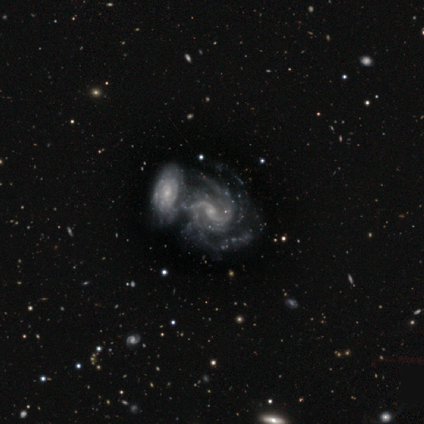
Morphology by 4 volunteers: Smooth or featured? 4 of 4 (100%) said featured or disk. Edge-on disk? 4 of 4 (100%) said no. Bar? 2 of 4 (50%, tied with no) said strong. Spiral arms? 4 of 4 (100%) said yes. Spiral winding? 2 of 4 (50%) said loose. Spiral arm count? 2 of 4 (50%) said 2. Bulge size? 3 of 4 (75%) said small. Merging? 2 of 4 (50%) said merger.